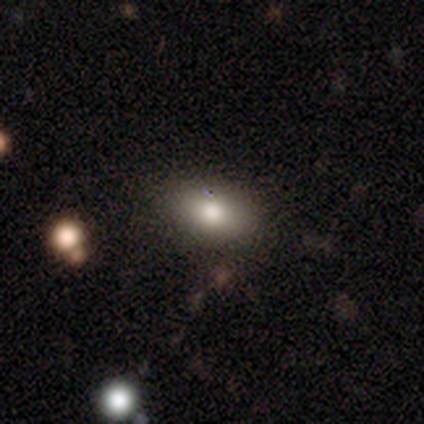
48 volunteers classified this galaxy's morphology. A smooth galaxy with no disk features (77%) that is in between round and cigar-shaped (86%). Merging: none (93%).